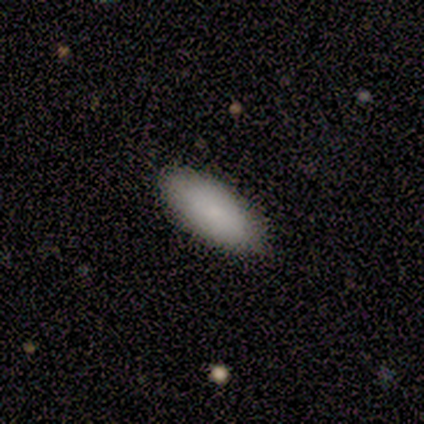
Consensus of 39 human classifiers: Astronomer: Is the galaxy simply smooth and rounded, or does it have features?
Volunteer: smooth — 85%.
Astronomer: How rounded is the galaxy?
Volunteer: in between — 82%.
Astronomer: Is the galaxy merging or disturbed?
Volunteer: none — 73%.